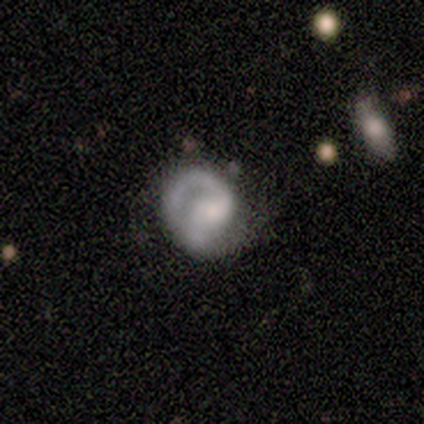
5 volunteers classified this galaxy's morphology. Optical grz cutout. It shows a featured or disk galaxy (60%) with no bar (67%), 1 (50%, tied with 2) tight (100%) spiral arms (67%) and a small central bulge (67%). Merging: none (60%).